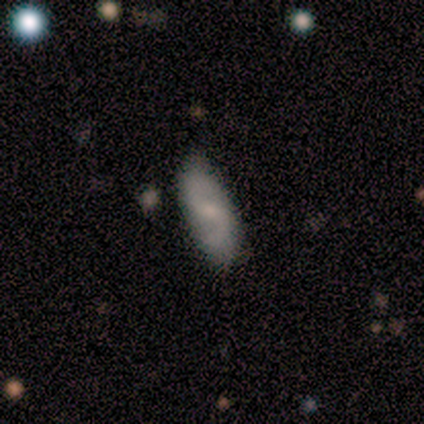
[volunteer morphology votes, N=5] type=featured or disk (60%); edge-on=no (100%); bar=weak (67%); spiral arms=yes (100%); winding=loose (100%); arm count=2 (100%); bulge=small (100%); merging=none (100%).